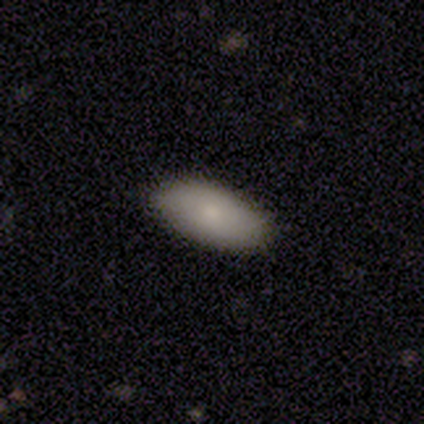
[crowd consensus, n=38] Overall: smooth (82%). How rounded: in between (90%). Merging: none (89%).